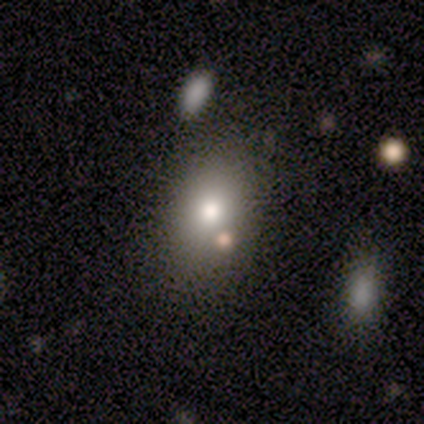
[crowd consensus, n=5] A smooth galaxy with no disk features (80%) that is in between round and cigar-shaped (75%).

Vote fractions:
- Smooth or featured? smooth: 80% / featured or disk: 20% / star or artifact: 0%
- How rounded? in between: 75% / round: 25% / cigar-shaped: 0%
- Merging? none: 100% / minor disturbance: 0% / major disturbance: 0% / merger: 0%